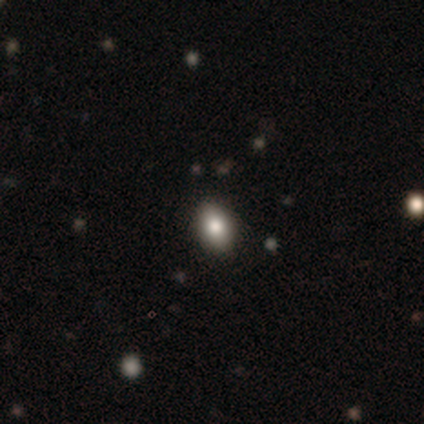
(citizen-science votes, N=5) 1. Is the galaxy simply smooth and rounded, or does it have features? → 60% smooth, 20% featured or disk, 20% star or artifact.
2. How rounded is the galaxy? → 67% in between, 33% round, 0% cigar-shaped.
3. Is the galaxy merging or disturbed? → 100% none, 0% minor disturbance, 0% major disturbance, 0% merger.